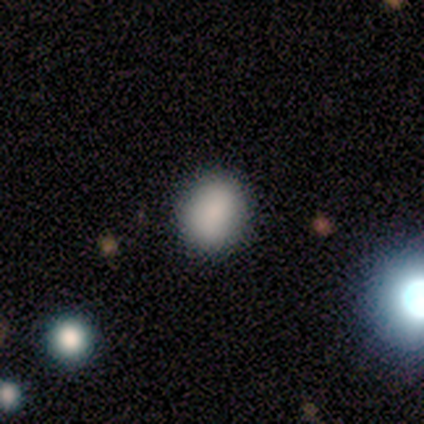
Volunteers were most divided on "smooth or featured": smooth: 67%, star or artifact: 33%, featured or disk: 0%. More confident: how rounded — in between (100%); merging — none (100%).